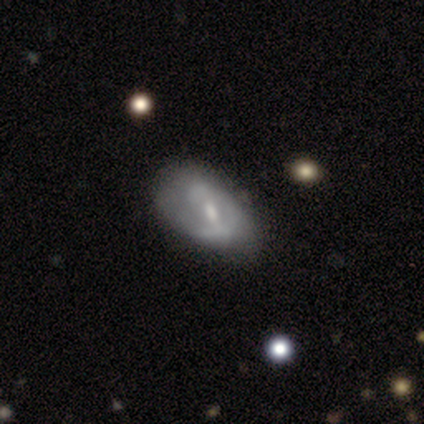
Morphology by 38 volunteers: smooth_or_featured: featured or disk (p=0.89) [alt: smooth p=0.08]
disk_edge_on: no (p=1.00)
bar: weak (p=0.53) [alt: no p=0.29]
has_spiral_arms: yes (p=0.76) [alt: no p=0.24]
spiral_winding: tight (p=0.38) [tied with: medium p=0.38]
spiral_arm_count: 2 (p=0.62) [alt: 1 p=0.19]
bulge_size: moderate (p=0.50) [alt: small p=0.41]
merging: none (p=0.49) [alt: minor disturbance p=0.19]